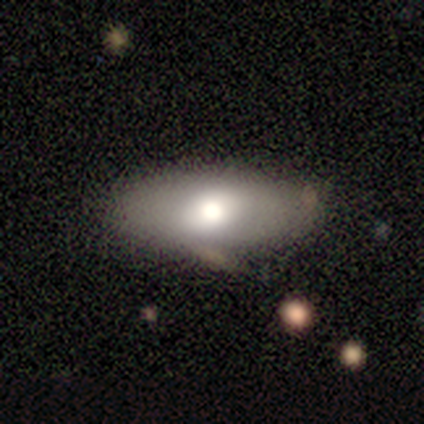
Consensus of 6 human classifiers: A smooth galaxy with no disk features (67%) that is in between round and cigar-shaped (100%). Merging: none (100%).